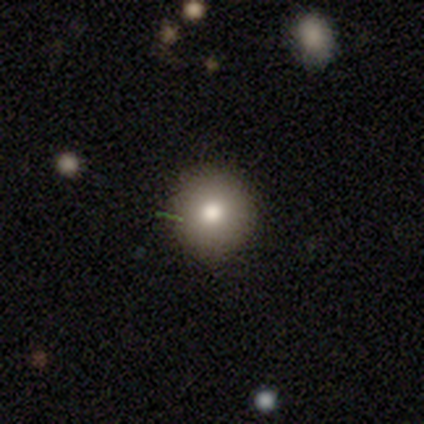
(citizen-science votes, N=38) Smooth or featured: smooth — 71% (featured or disk — 16%)
How rounded: round — 89% (in between — 11%)
Merging: none — 76% (minor disturbance — 18%)